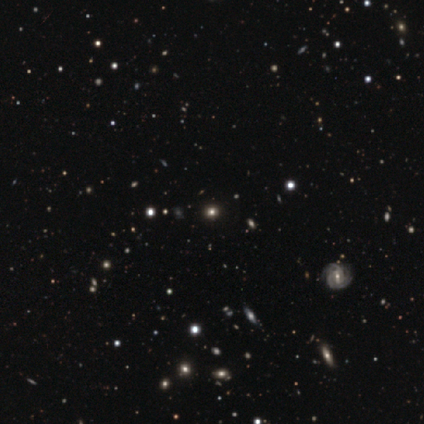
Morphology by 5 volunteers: This appears to be a smooth galaxy with no disk features (40%, tied with star or artifact) that is round (100%). Merging: none (100%).